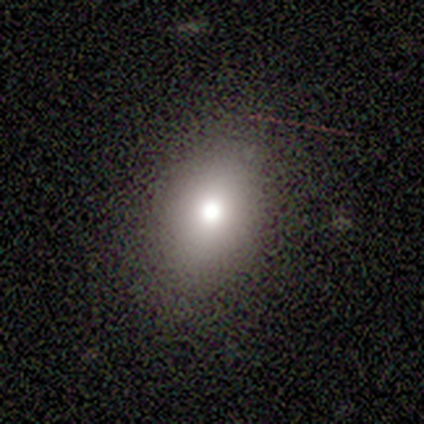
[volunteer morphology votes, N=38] This is likely a smooth galaxy (63%). How rounded: likely in between (75%). Merging: clearly none (90%).